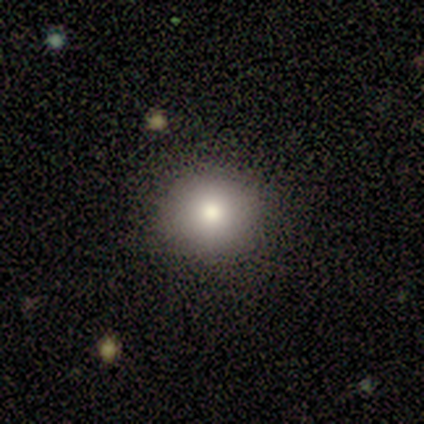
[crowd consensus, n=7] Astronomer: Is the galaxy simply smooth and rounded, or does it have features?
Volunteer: smooth — 43%, tied with star or artifact at 43%.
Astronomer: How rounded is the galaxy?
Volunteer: round — 100%.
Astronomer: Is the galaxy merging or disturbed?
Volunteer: none — 100%.